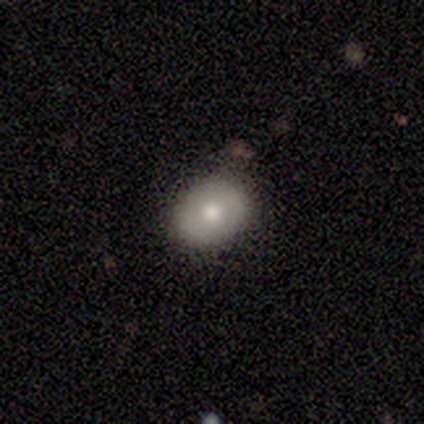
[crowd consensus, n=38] A smooth galaxy with no disk features (66%) that is round (56%).

Vote fractions:
- Smooth or featured? smooth: 66% / featured or disk: 26% / star or artifact: 8%
- How rounded? round: 56% / in between: 44% / cigar-shaped: 0%
- Merging? none: 89% / minor disturbance: 9% / merger: 3% / major disturbance: 0%